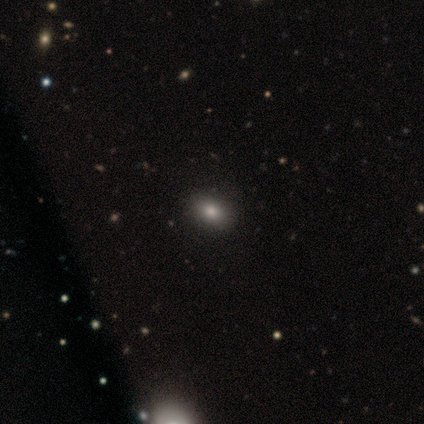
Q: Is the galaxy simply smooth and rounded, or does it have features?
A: smooth — 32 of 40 (80%).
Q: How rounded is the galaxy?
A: in between — 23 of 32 (72%).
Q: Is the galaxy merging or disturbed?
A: none — 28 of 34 (82%).